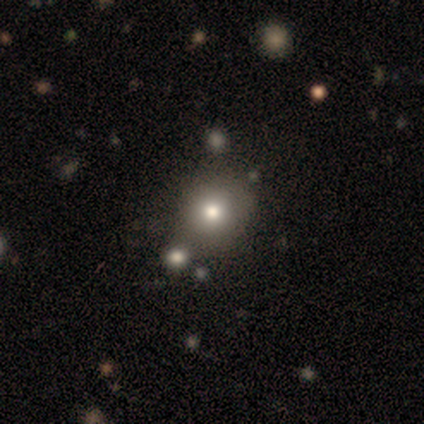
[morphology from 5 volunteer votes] smooth_or_featured: smooth (p=0.80) [alt: featured or disk p=0.20]
how_rounded: round (p=0.75) [alt: in between p=0.25]
merging: none (p=0.60) [alt: minor disturbance p=0.20]